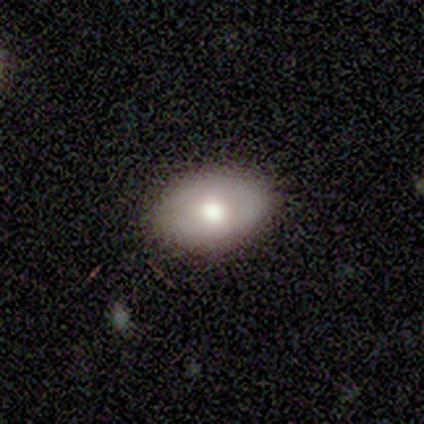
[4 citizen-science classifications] This is possibly a smooth galaxy (50%). How rounded: possibly round (50%, tied with in between). Merging: clearly none (100%).